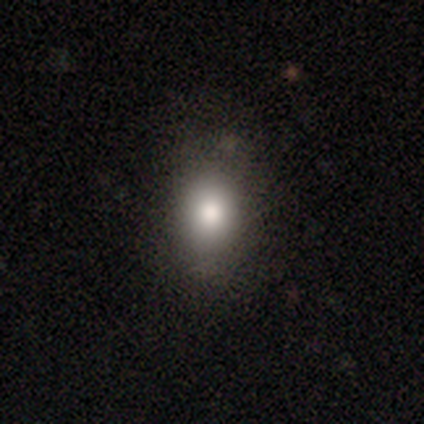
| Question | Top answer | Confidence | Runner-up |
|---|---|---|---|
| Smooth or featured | smooth | 100% | — |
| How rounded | round | 80% | in between (20%) |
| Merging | none | 80% | minor disturbance (20%) |